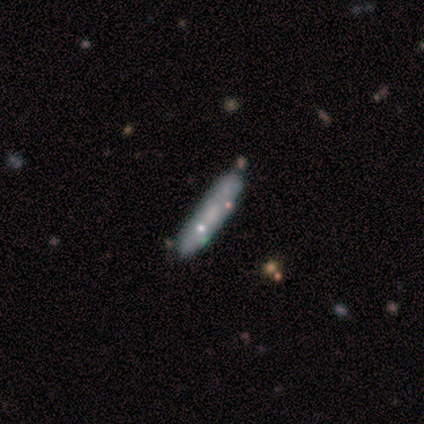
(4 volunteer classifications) A smooth galaxy with no disk features (75%) that is cigar-shaped (100%).

Vote fractions:
- Smooth or featured? smooth: 75% / star or artifact: 25% / featured or disk: 0%
- How rounded? cigar-shaped: 100% / round: 0% / in between: 0%
- Merging? none: 67% / minor disturbance: 33% / major disturbance: 0% / merger: 0%